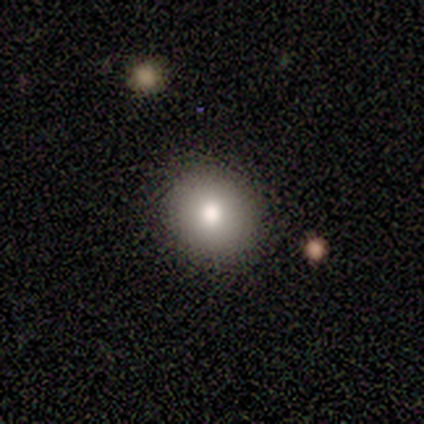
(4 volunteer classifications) Q: Smooth or featured?
A: smooth (75%); runner-up: featured or disk (25%)
Q: How rounded?
A: in between (67%); runner-up: round (33%)
Q: Merging?
A: none (75%); runner-up: minor disturbance (25%)